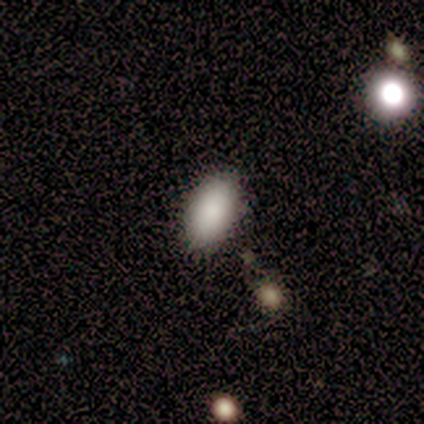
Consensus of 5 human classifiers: This appears to be a smooth galaxy with no disk features (80%) that is in between round and cigar-shaped (100%). Merging: none (75%).